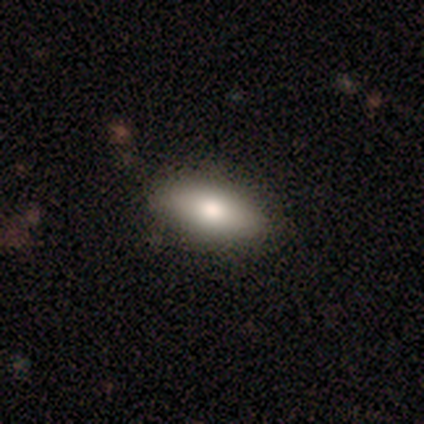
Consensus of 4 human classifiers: featured or disk 50%, smooth 25%, star or artifact 25%. Down the decision tree: edge-on disk — yes (50%, tied with no); edge-on bulge — rounded (100%); merging — minor disturbance (67%).